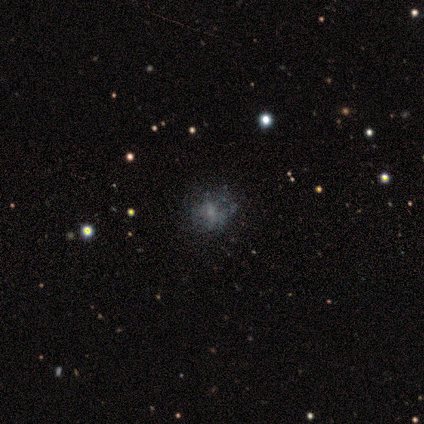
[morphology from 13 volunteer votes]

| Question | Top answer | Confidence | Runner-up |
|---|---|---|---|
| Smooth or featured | smooth | 54% | featured or disk (31%) |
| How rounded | round | 100% | — |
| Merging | none | 82% | minor disturbance (9%) |